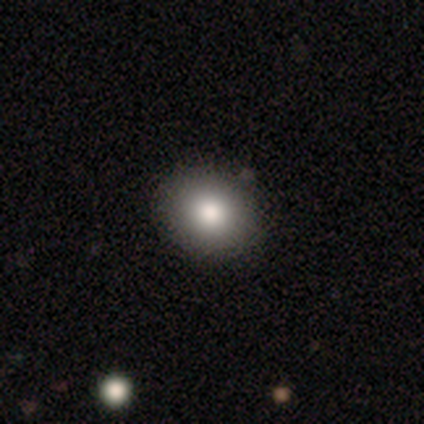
Smooth or featured: smooth — 84% (featured or disk — 13%)
How rounded: round — 56% (in between — 44%)
Merging: none — 70% (minor disturbance — 3%)